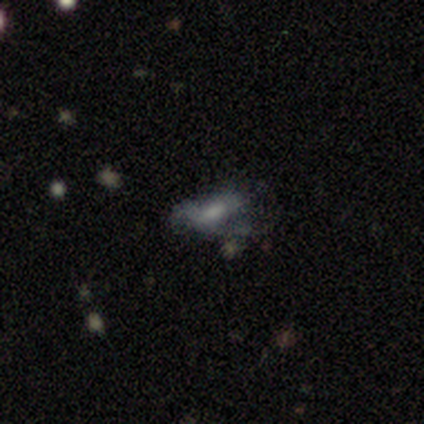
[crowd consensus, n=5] smooth_or_featured: smooth (p=0.80) [alt: star or artifact p=0.20]
how_rounded: in between (p=1.00)
merging: none (p=0.50) [tied with: major disturbance p=0.50]